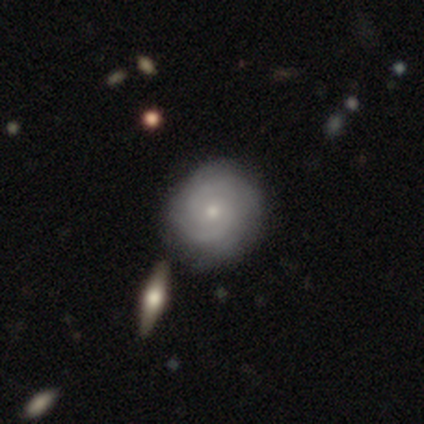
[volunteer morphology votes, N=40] This appears to be a featured or disk galaxy (80%) with no bar (71%), 2 (65%) tight (68%) spiral arms (100%) and a small central bulge (68%). Merging: none (64%).